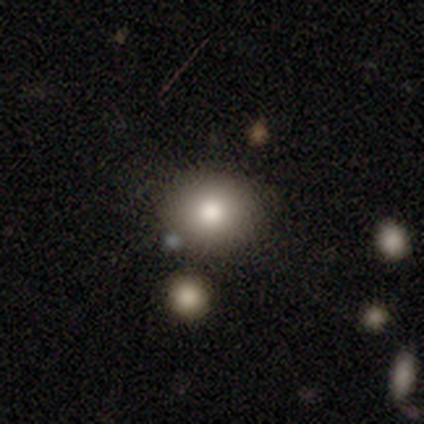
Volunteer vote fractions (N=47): This is clearly a smooth galaxy (83%). How rounded: likely round (77%). Merging: likely none (76%).